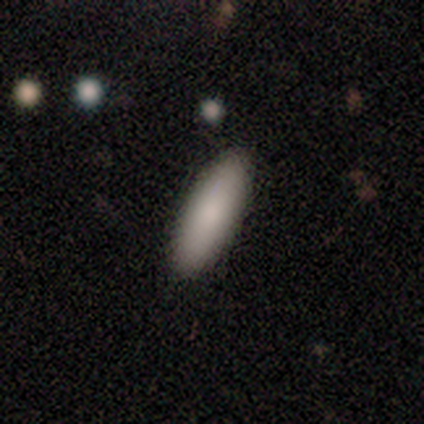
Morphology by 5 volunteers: A smooth galaxy with no disk features (100%) that is in between round and cigar-shaped (80%). Merging: none (100%).